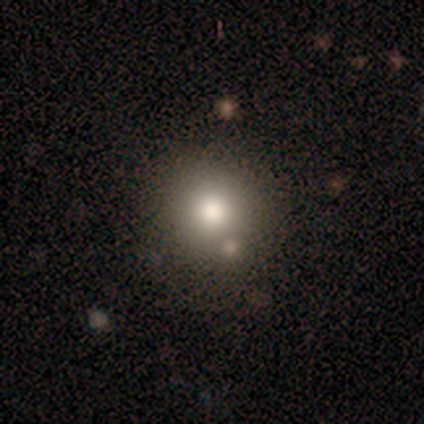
Smooth or featured?
  - smooth: 60% *
  - featured or disk: 20%
  - star or artifact: 20%
How rounded?
  - round: 100% *
  - in between: 0%
  - cigar-shaped: 0%
Merging?
  - none: 75% *
  - merger: 25%
  - minor disturbance: 0%
  - major disturbance: 0%